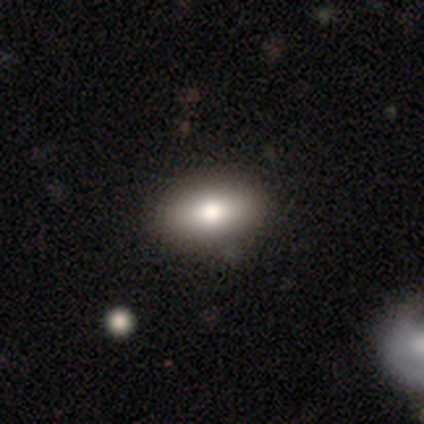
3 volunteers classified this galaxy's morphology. smooth-or-featured: smooth: 100% | featured or disk: 0% | star or artifact: 0%
  how-rounded: round: 33% (tied) | in between: 33% (tied) | cigar-shaped: 33% (tied)
  merging: none: 100% | minor disturbance: 0% | major disturbance: 0% | merger: 0%